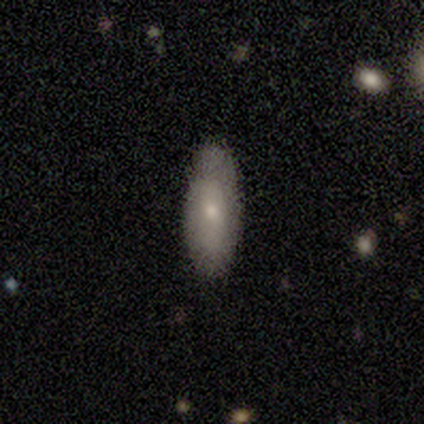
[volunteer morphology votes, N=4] smooth 50%, featured or disk 25%, star or artifact 25%. Down the decision tree: how rounded — in between (100%); merging — none (67%).